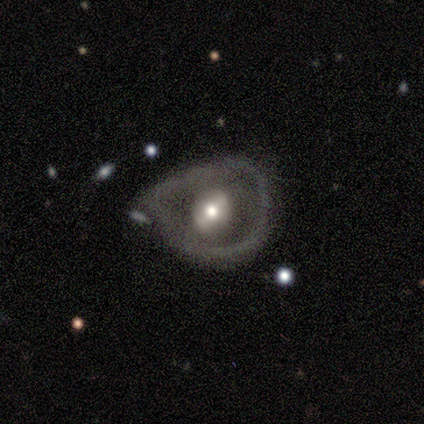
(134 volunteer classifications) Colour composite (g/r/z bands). It shows a featured or disk galaxy (72%) with no bar (46%), no spiral arms (88%) and a moderate central bulge (66%). Merging: minor disturbance (36%, tied with major disturbance).